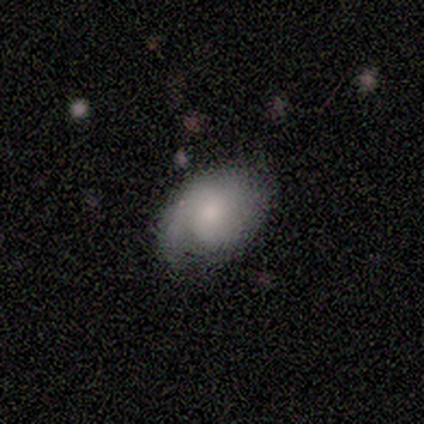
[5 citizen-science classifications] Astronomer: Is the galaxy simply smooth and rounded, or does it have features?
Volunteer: smooth — 60% (runner-up: featured or disk, 40%).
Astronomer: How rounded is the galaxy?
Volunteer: round — 67%.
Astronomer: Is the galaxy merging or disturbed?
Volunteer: none — 40%, tied with major disturbance at 40%.